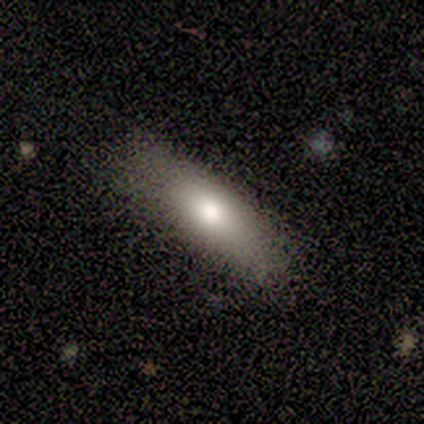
smooth_or_featured: smooth (p=1.00)
how_rounded: in between (p=1.00)
merging: none (p=0.80) [alt: merger p=0.20]